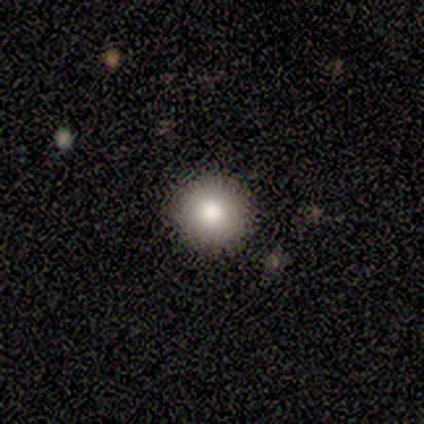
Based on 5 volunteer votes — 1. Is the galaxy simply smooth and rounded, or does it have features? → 100% smooth, 0% featured or disk, 0% star or artifact.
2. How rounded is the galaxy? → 100% round, 0% in between, 0% cigar-shaped.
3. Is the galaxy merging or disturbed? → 100% none, 0% minor disturbance, 0% major disturbance, 0% merger.